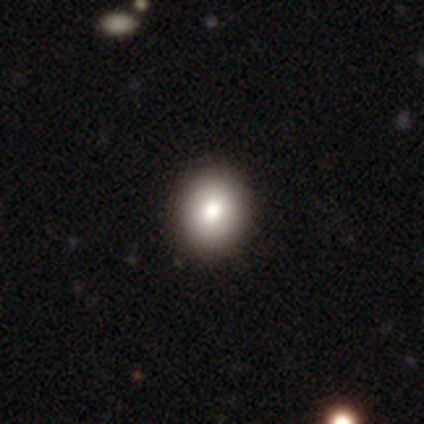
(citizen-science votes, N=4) Q: Smooth or featured?
A: smooth (100%)
Q: How rounded?
A: in between (75%); runner-up: round (25%)
Q: Merging?
A: none (100%)